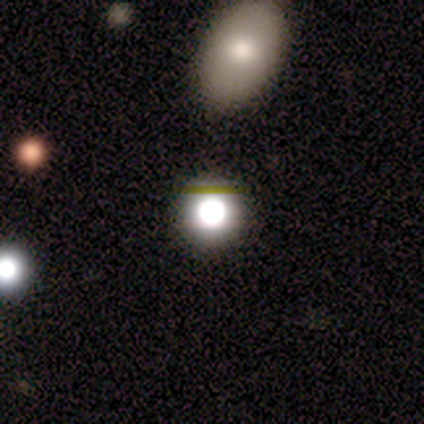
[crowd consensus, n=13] Smooth or featured? star or artifact (54%)